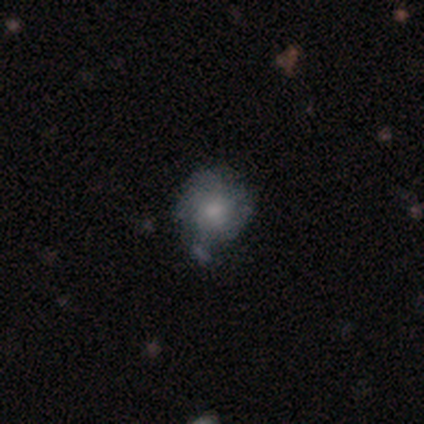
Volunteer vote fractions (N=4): Smooth or featured: featured or disk — 100%
Edge-on disk: no — 100%
Bar: no — 100%
Spiral arms: no — 75% (yes — 25%)
Bulge size: moderate — 50% (tied with small — 50%)
Merging: none — 100%